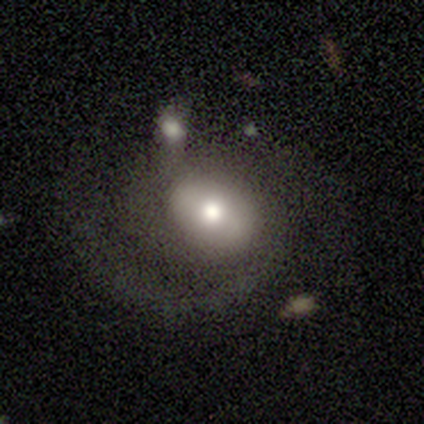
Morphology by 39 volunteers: Smooth or featured?
  - featured or disk: 74% *
  - smooth: 21%
  - star or artifact: 5%
Edge-on disk?
  - no: 97% *
  - yes: 3%
Bar?
  - no: 54% *
  - weak: 25%
  - strong: 21%
Spiral arms?
  - yes: 82% *
  - no: 18%
Spiral winding?
  - loose: 52% *
  - medium: 43%
  - tight: 4%
Spiral arm count?
  - 2: 61% *
  - 1: 26%
  - can't tell: 13%
  - 3: 0%
  - 4: 0%
  - more than 4: 0%
Bulge size?
  - moderate: 43% *
  - small: 25%
  - large: 21%
  - dominant: 7%
  - none: 4%
Merging?
  - none: 41% *
  - major disturbance: 24%
  - minor disturbance: 22%
  - merger: 14%